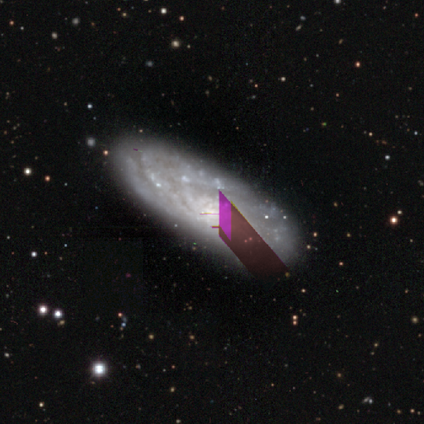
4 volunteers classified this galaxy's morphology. Smooth or featured?
  - featured or disk: 100% *
  - smooth: 0%
  - star or artifact: 0%
Edge-on disk?
  - no: 100% *
  - yes: 0%
Bar?
  - no: 75% *
  - weak: 25%
  - strong: 0%
Spiral arms?
  - yes: 75% *
  - no: 25%
Spiral winding?
  - tight: 67% *
  - medium: 33%
  - loose: 0%
Spiral arm count?
  - can't tell: 67% *
  - 2: 33%
  - 1: 0%
  - 3: 0%
  - 4: 0%
  - more than 4: 0%
Bulge size?
  - small: 50% *
  - moderate: 25%
  - none: 25%
  - dominant: 0%
  - large: 0%
Merging?
  - none: 75% *
  - minor disturbance: 25%
  - major disturbance: 0%
  - merger: 0%